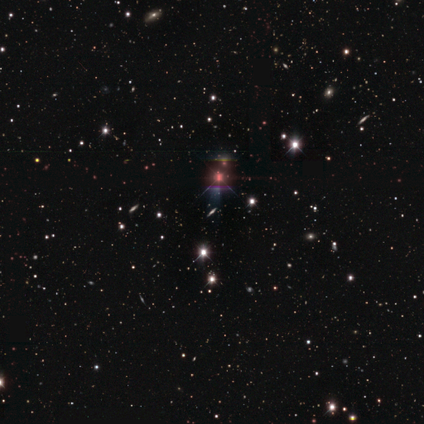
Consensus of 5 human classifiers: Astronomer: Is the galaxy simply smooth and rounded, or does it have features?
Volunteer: star or artifact — 80%.